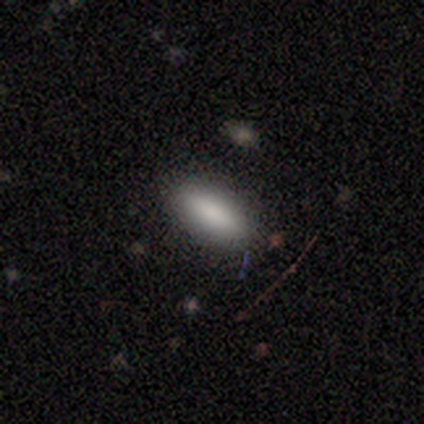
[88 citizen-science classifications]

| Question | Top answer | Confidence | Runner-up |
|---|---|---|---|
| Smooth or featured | smooth | 77% | star or artifact (14%) |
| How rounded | in between | 74% | cigar-shaped (24%) |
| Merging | none | 89% | minor disturbance (11%) |